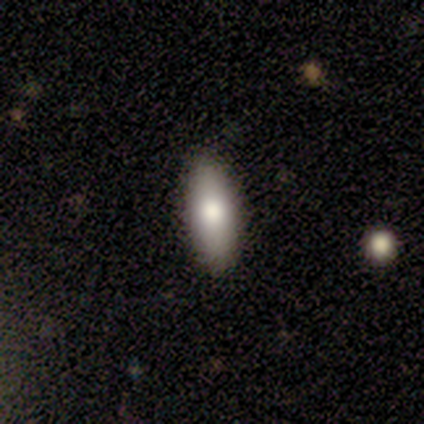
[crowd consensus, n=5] Smooth or featured: smooth — 100%
How rounded: in between — 100%
Merging: none — 100%